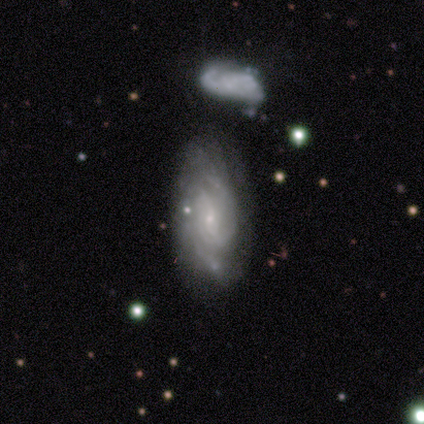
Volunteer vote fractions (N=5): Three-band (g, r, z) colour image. It shows a featured or disk galaxy (100%) with no bar (80%), 3 (40%, tied with can't tell) tight (80%) spiral arms (100%) and a small central bulge (100%). Merging: none (80%).